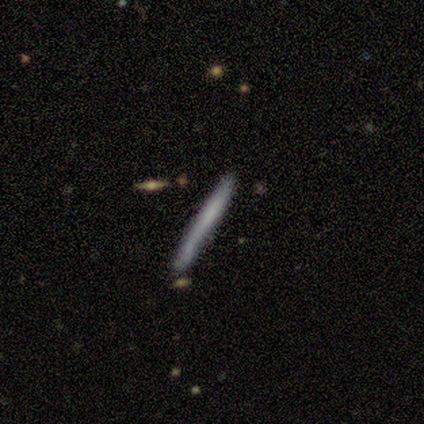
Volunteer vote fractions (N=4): smooth-or-featured: smooth: 75% | featured or disk: 25% | star or artifact: 0%
  how-rounded: cigar-shaped: 100% | round: 0% | in between: 0%
  merging: none: 100% | minor disturbance: 0% | major disturbance: 0% | merger: 0%